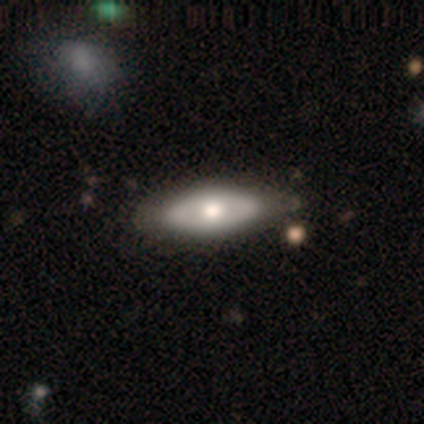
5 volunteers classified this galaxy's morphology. Smooth or featured: featured or disk — 80% (smooth — 20%)
Edge-on disk: no — 100%
Bar: no — 100%
Spiral arms: no — 75% (yes — 25%)
Bulge size: moderate — 50% (large — 25%)
Merging: none — 100%